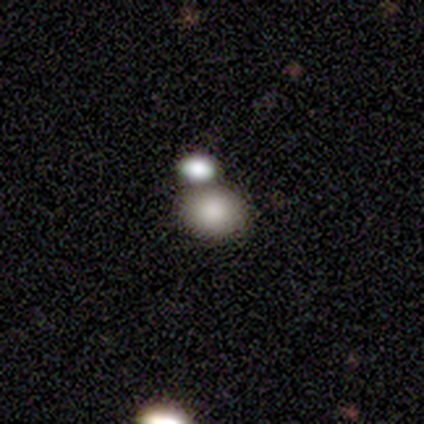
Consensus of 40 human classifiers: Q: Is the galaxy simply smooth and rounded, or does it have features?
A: smooth — 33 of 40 (82%).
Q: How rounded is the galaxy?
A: in between — 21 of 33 (64%).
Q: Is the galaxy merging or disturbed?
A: none — 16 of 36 (44%).